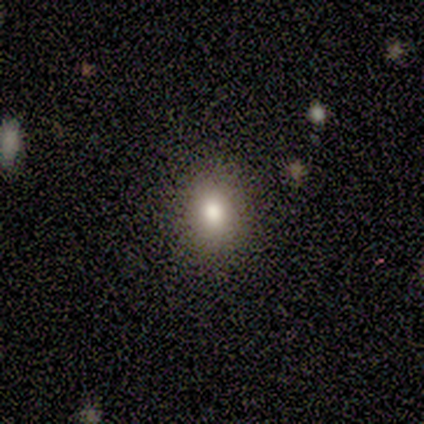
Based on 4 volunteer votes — Smooth or featured: smooth — 75% (star or artifact — 25%)
How rounded: in between — 100%
Merging: none — 100%